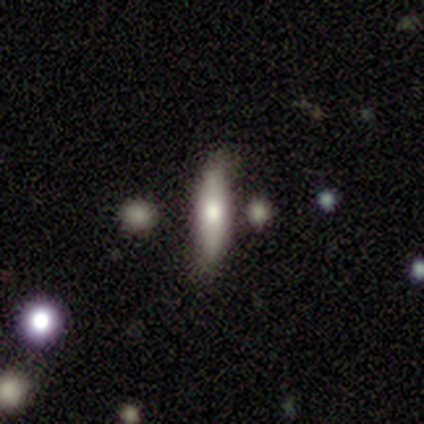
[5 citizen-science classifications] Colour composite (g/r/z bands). It shows a featured or disk galaxy (60%) viewed edge-on (100%) with a rounded central bulge (100%). Merging: none (80%).